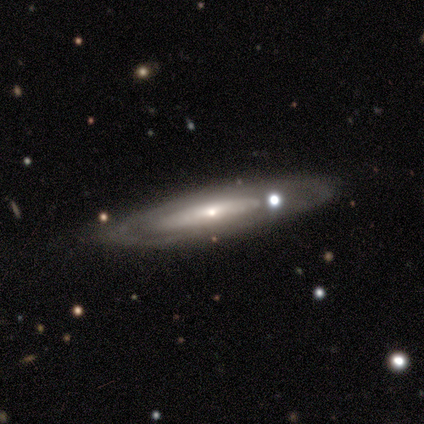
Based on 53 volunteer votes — featured or disk 62%, smooth 30%, star or artifact 8%. Down the decision tree: edge-on disk — no (67%); bar — no (86%); spiral arms — no (64%); bulge size — small (68%); merging — none (59%).